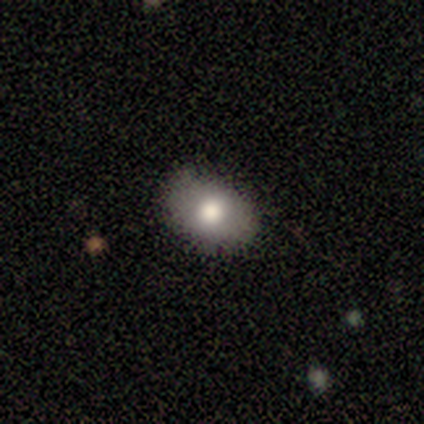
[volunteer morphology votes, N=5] Overall: featured or disk (60%; smooth 40%). Edge-on disk: no (100%). Bar: no (100%). Spiral arms: no (100%). Bulge size: moderate (67%; large 33%). Merging: none (80%).